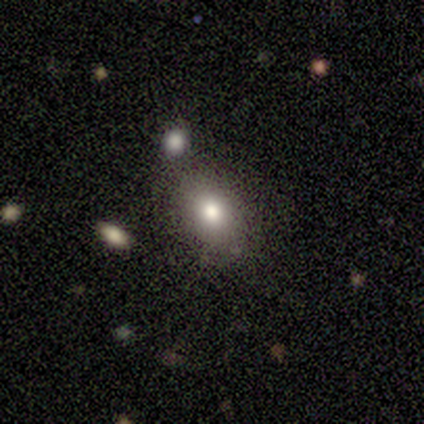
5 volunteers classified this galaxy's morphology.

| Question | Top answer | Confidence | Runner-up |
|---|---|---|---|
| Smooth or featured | smooth | 60% | featured or disk (40%) |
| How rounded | in between | 100% | — |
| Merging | none | 60% | minor disturbance (20%) |